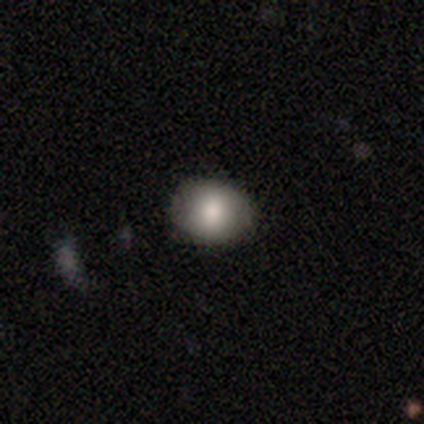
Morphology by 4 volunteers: smooth_or_featured: smooth (p=0.75) [alt: featured or disk p=0.25]
how_rounded: round (p=0.67) [alt: in between p=0.33]
merging: none (p=0.75) [alt: merger p=0.25]